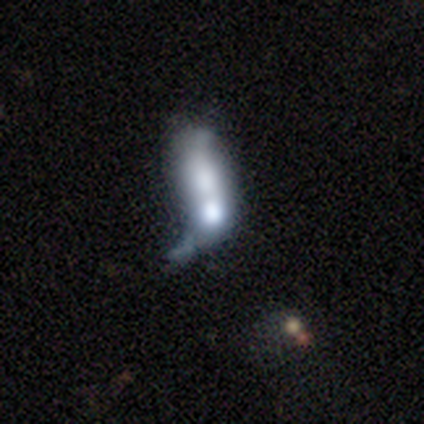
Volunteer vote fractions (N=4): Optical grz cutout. It shows a smooth galaxy with no disk features (100%) that is in between round and cigar-shaped (100%). Merging: none (25%, tied with minor disturbance, major disturbance and merger).